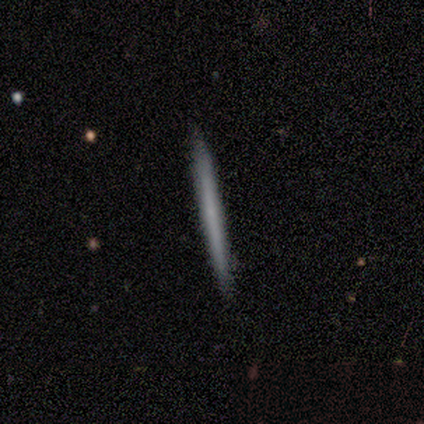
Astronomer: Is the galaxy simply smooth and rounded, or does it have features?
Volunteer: smooth — 60% (runner-up: featured or disk, 40%).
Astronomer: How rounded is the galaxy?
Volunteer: cigar-shaped — 100%.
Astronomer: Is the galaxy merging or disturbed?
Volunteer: none — 80%.